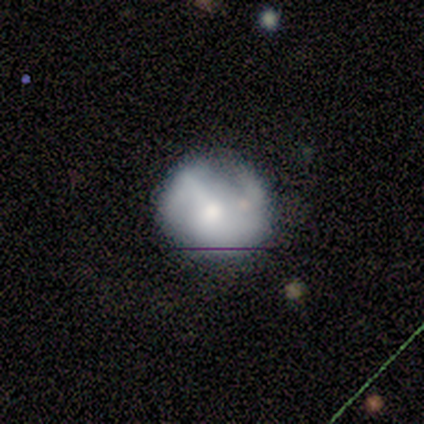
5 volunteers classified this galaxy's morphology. Smooth or featured: smooth — 40% (tied with featured or disk — 40%)
How rounded: round — 100%
Merging: none — 100%